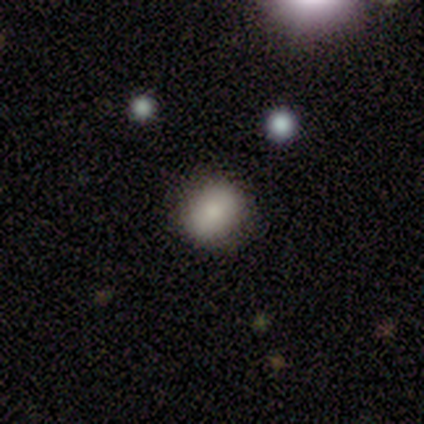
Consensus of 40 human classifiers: Smooth or featured: smooth — 82% (star or artifact — 10%)
How rounded: round — 55% (in between — 42%)
Merging: none — 89% (minor disturbance — 11%)